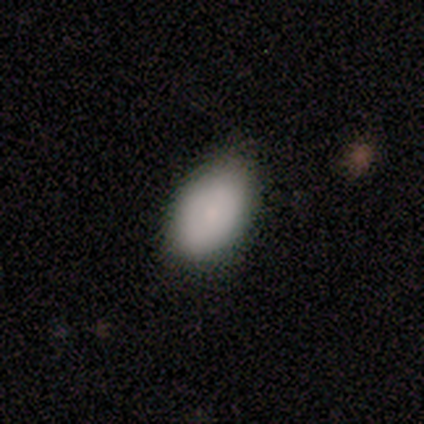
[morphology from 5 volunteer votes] Consensus on every question: smooth or featured — smooth (100%); how rounded — in between (100%); merging — none (100%).